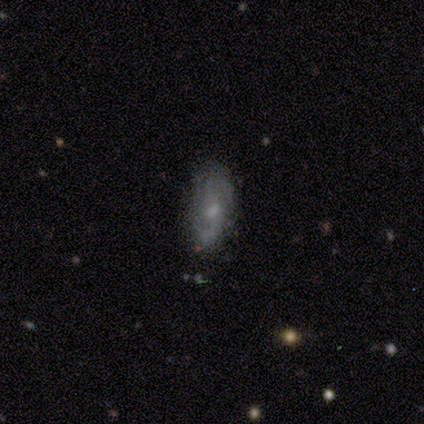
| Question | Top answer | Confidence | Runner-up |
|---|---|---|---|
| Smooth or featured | smooth | 60% | featured or disk (40%) |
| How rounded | round | 33% | tied: in between (33%), cigar-shaped (33%) |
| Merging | none | 60% | minor disturbance (20%) |